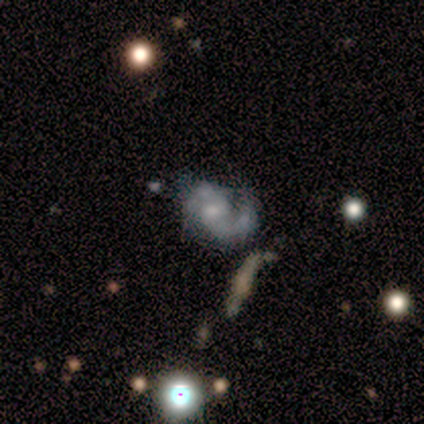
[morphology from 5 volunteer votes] This appears to be a featured or disk galaxy (100%) with no bar (60%), 2 (60%) loose (60%) spiral arms (100%) and a small central bulge (60%). Merging: none (40%, tied with minor disturbance).